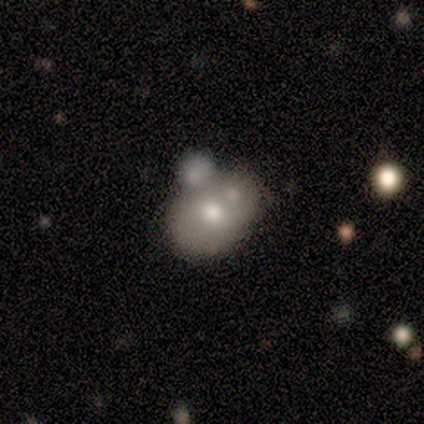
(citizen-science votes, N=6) smooth-or-featured: smooth: 50% | featured or disk: 33% | star or artifact: 17%
  how-rounded: round: 67% | in between: 33% | cigar-shaped: 0%
  merging: merger: 60% | none: 40% | minor disturbance: 0% | major disturbance: 0%